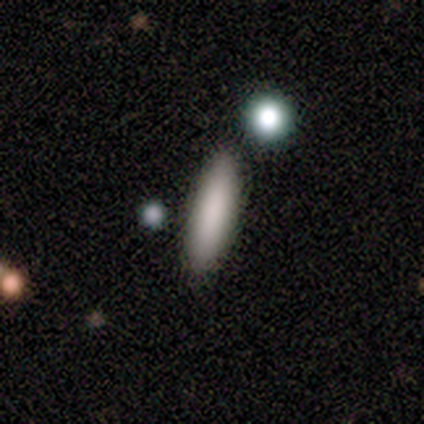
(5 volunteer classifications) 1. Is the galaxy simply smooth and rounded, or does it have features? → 80% smooth, 20% featured or disk, 0% star or artifact.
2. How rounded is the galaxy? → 50% in between (tied), 50% cigar-shaped (tied), 0% round.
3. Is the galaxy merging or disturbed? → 100% none, 0% minor disturbance, 0% major disturbance, 0% merger.